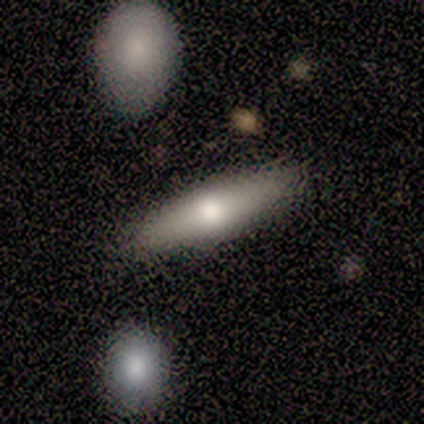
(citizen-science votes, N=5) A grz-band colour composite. It shows a smooth galaxy with no disk features (80%) that is in between round and cigar-shaped (100%). Merging: none (60%).